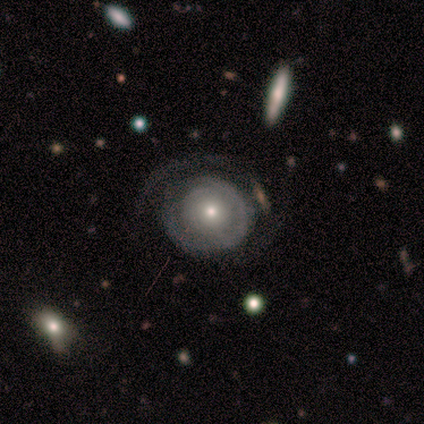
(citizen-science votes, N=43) Smooth or featured? 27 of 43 (63%) said featured or disk. Edge-on disk? 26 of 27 (96%) said no. Bar? 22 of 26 (85%) said no. Spiral arms? 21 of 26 (81%) said yes. Spiral winding? 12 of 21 (57%) said tight. Spiral arm count? 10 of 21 (48%) said can't tell. Bulge size? 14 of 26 (54%) said small. Merging? 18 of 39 (46%) said none.